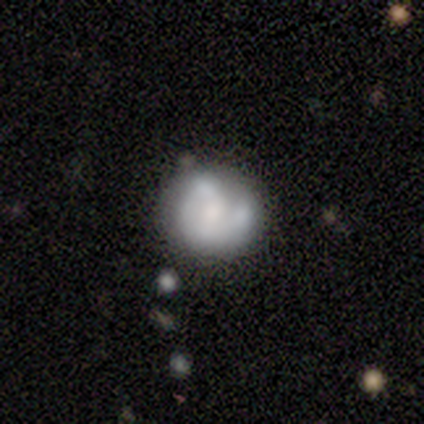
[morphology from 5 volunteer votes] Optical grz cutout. It shows a featured or disk galaxy (60%) with no bar (100%), no spiral arms (67%) and a moderate central bulge (67%). Merging: none (75%).